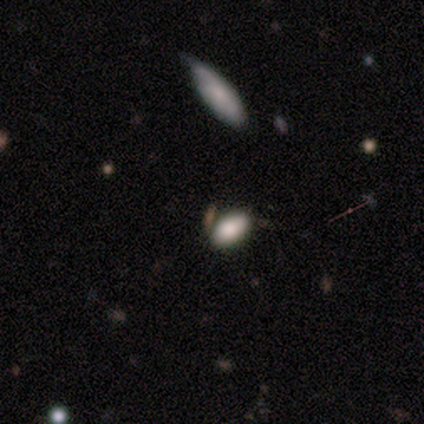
Overall: smooth (80%). How rounded: in between (100%). Merging: none (75%).